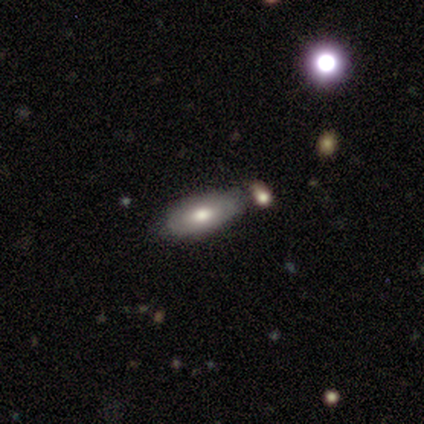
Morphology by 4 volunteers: This appears to be a featured or disk galaxy (50%) viewed edge-on (50%, tied with no) with a rounded central bulge (100%). Merging: none (67%).